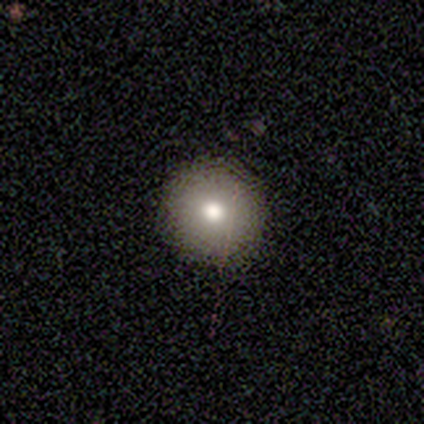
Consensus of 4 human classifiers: Volunteers were most divided on "smooth or featured": smooth: 50%, featured or disk: 25%, star or artifact: 25%. More confident: how rounded — round (100%); merging — none (100%).